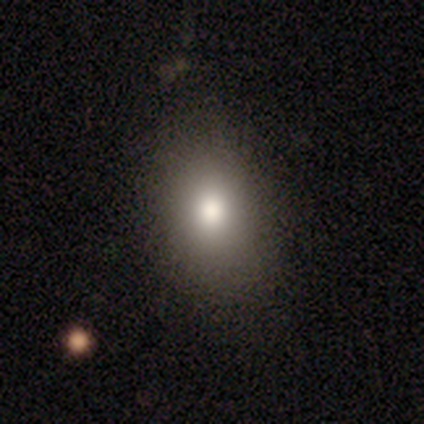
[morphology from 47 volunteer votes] smooth-or-featured: smooth: 83% | featured or disk: 9% | star or artifact: 9%
  how-rounded: in between: 69% | round: 31% | cigar-shaped: 0%
  merging: none: 98% | minor disturbance: 2% | major disturbance: 0% | merger: 0%